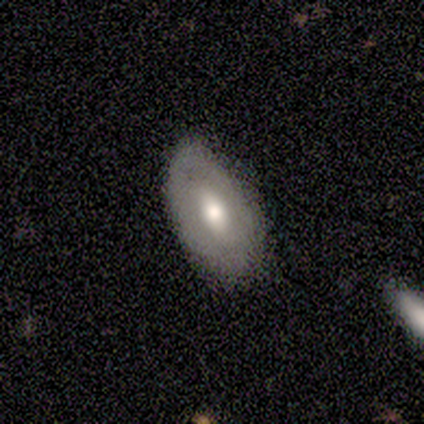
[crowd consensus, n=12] Smooth or featured?
  - featured or disk: 58% *
  - smooth: 33%
  - star or artifact: 8%
Edge-on disk?
  - no: 100% *
  - yes: 0%
Bar?
  - no: 71% *
  - weak: 29%
  - strong: 0%
Spiral arms?
  - no: 86% *
  - yes: 14%
Bulge size?
  - moderate: 86% *
  - large: 14%
  - dominant: 0%
  - small: 0%
  - none: 0%
Merging?
  - none: 64% *
  - minor disturbance: 27%
  - major disturbance: 9%
  - merger: 0%